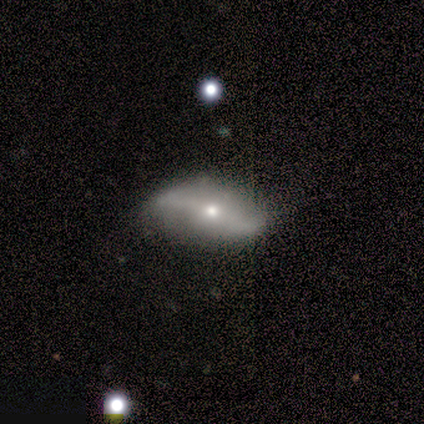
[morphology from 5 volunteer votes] smooth-or-featured: featured or disk: 60% | smooth: 20% | star or artifact: 20%
  disk-edge-on: no: 100% | yes: 0%
    bar: strong: 67% | weak: 33% | no: 0%
    has-spiral-arms: yes: 100% | no: 0%
      spiral-winding: tight: 33% (tied) | medium: 33% (tied) | loose: 33% (tied)
      spiral-arm-count: 2: 67% | can't tell: 33% | 1: 0% | 3: 0% | 4: 0% | more than 4: 0%
    bulge-size: small: 67% | moderate: 33% | dominant: 0% | large: 0% | none: 0%
  merging: none: 75% | major disturbance: 25% | minor disturbance: 0% | merger: 0%